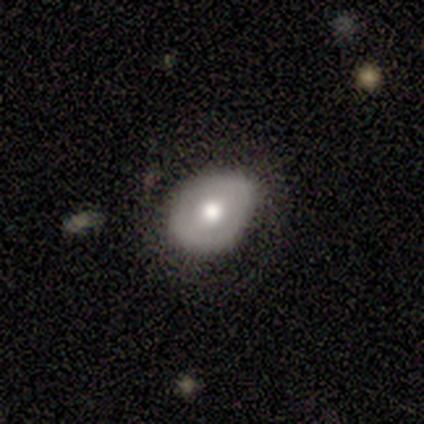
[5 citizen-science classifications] smooth 80%, featured or disk 20%, star or artifact 0%. Down the decision tree: how rounded — in between (75%); merging — none (60%).